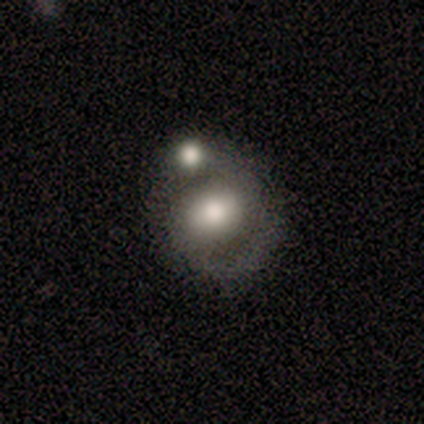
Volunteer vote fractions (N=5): Morphology: type=featured or disk (80%); edge-on=no (100%); bar=strong (75%); spiral arms=no (75%); bulge=moderate (100%); merging=merger (60%).